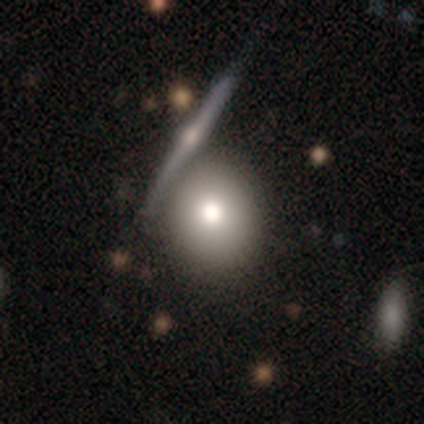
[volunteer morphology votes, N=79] Overall: smooth (77%). How rounded: round (85%). Merging: none (41%; merger 27%).